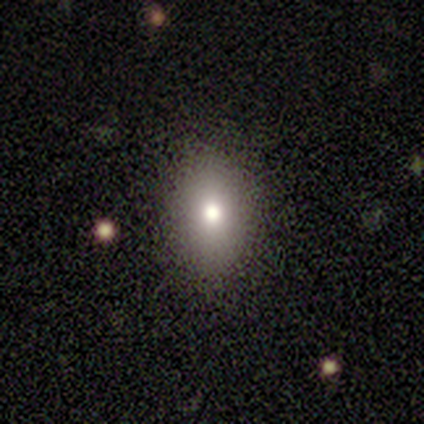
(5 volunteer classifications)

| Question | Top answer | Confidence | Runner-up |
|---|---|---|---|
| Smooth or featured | smooth | 100% | — |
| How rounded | in between | 100% | — |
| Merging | none | 100% | — |